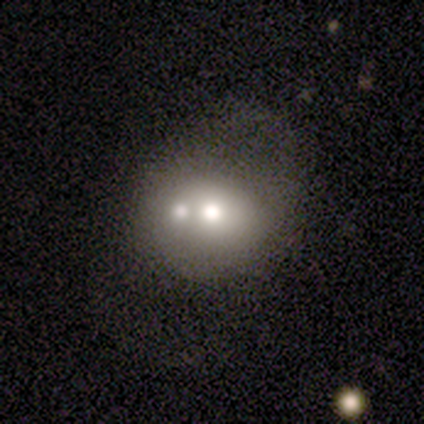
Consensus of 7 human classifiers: Morphology: type=featured or disk (57%); edge-on=no (100%); bar=no (100%); spiral arms=no (100%); bulge=moderate (75%); merging=none (43%, tied with minor disturbance).